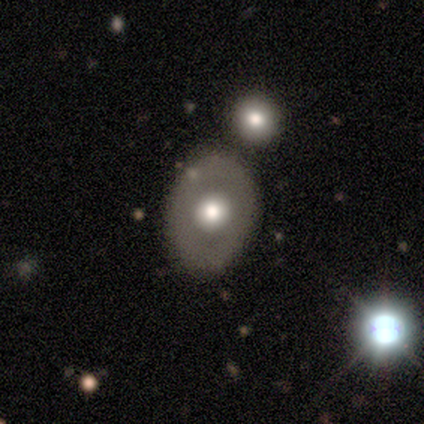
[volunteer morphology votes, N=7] Volunteers were most divided on "smooth or featured": featured or disk: 57%, star or artifact: 29%, smooth: 14%. More confident: edge-on disk — no (100%); bar — no (100%); spiral arms — no (100%); merging — none (100%); bulge size — moderate (75%).